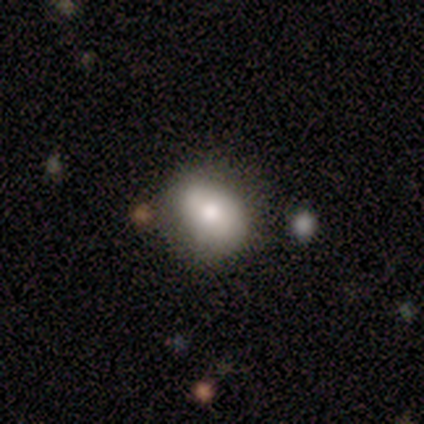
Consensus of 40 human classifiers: smooth_or_featured: smooth (p=0.70) [alt: featured or disk p=0.20]
how_rounded: in between (p=0.68) [alt: round p=0.32]
merging: none (p=0.67) [alt: minor disturbance p=0.28]